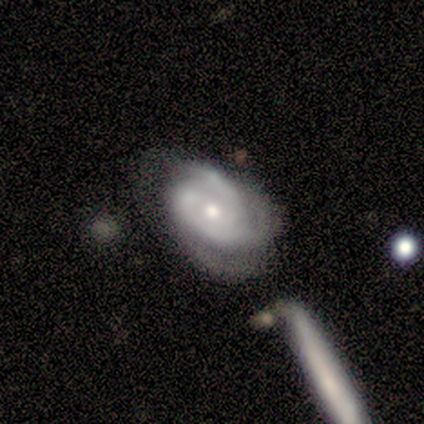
Smooth or featured? 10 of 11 (91%) said featured or disk. Edge-on disk? 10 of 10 (100%) said no. Bar? 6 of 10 (60%) said no. Spiral arms? 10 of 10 (100%) said yes. Spiral winding? 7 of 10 (70%) said medium. Spiral arm count? 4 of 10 (40%) said 3. Bulge size? 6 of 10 (60%) said moderate. Merging? 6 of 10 (60%) said minor disturbance.